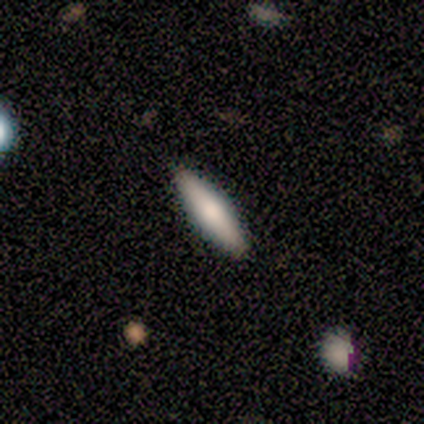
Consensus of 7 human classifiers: Q: Smooth or featured?
A: featured or disk (57%); runner-up: smooth (43%)
Q: Edge-on disk?
A: yes (100%)
Q: Edge-on bulge?
A: rounded (100%)
Q: Merging?
A: none (100%)